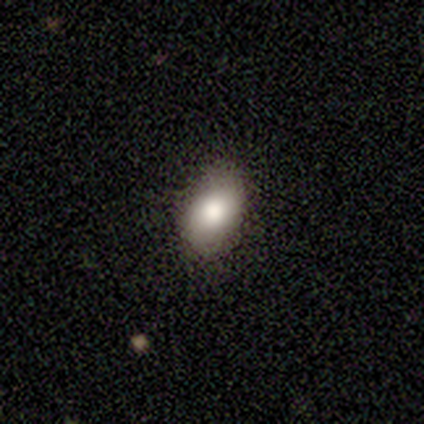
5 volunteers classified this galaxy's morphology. smooth_or_featured: smooth (p=1.00)
how_rounded: in between (p=0.80) [alt: round p=0.20]
merging: none (p=0.60) [alt: minor disturbance p=0.20]